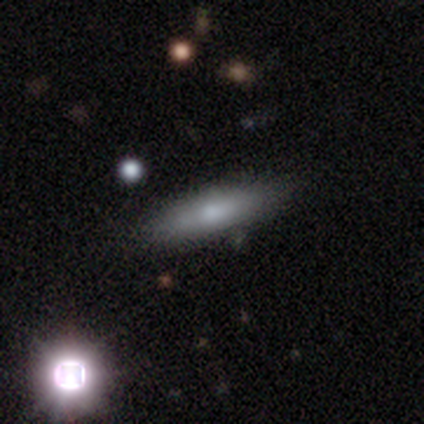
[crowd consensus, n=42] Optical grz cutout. It shows a smooth galaxy with no disk features (60%) that is cigar-shaped (84%). Merging: none (79%).